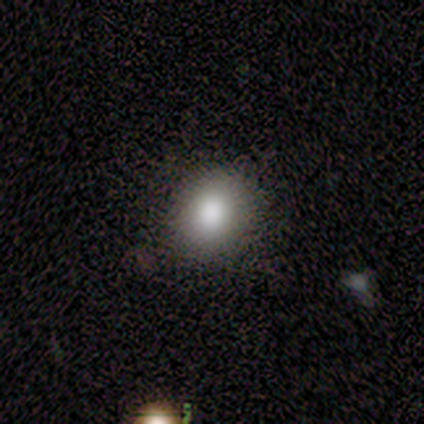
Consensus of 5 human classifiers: A smooth galaxy with no disk features (100%) that is round (80%). Merging: none (100%).